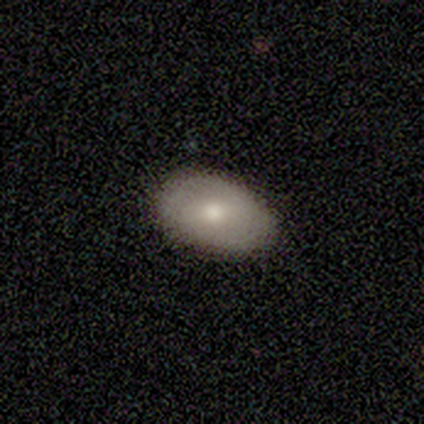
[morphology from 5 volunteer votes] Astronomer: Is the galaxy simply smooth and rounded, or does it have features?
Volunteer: featured or disk — 60% (runner-up: smooth, 40%).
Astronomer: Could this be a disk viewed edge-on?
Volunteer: no — 100%.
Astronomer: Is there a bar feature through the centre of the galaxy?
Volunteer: weak — 67%.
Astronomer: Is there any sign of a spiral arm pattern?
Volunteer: no — 100%.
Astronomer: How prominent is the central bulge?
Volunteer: moderate — 67%.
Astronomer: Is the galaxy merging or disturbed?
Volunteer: none — 60% (runner-up: minor disturbance, 40%).